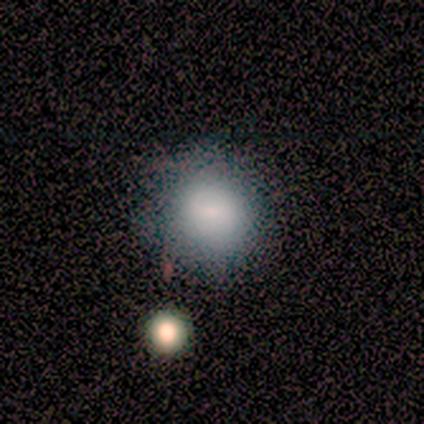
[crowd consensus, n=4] Smooth or featured? 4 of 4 (100%) said smooth. How rounded? 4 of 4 (100%) said round. Merging? 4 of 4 (100%) said none.